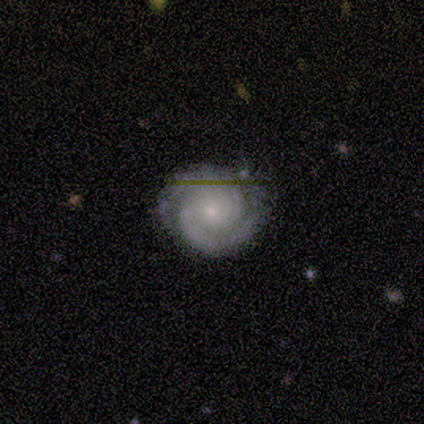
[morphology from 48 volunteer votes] Smooth or featured: featured or disk — 85% (smooth — 8%)
Edge-on disk: no — 98% (yes — 2%)
Bar: no — 78% (weak — 20%)
Spiral arms: yes — 100%
Spiral winding: tight — 82% (medium — 15%)
Spiral arm count: 2 — 80% (3 — 8%)
Bulge size: small — 80% (moderate — 18%)
Merging: none — 73% (minor disturbance — 20%)